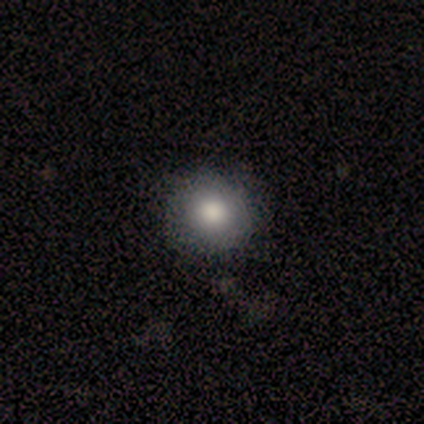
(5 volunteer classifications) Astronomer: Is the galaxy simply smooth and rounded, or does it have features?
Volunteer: smooth — 80%.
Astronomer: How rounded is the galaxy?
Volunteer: round — 75%.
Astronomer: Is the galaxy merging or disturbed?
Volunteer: none — 75%.